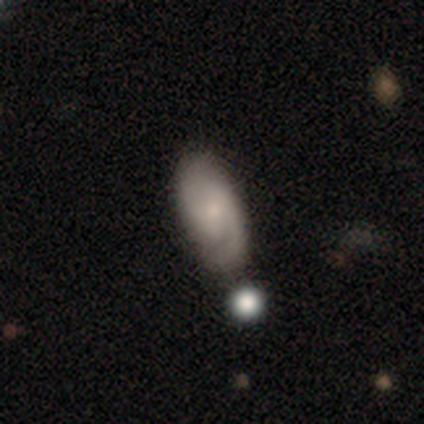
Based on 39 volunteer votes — Q: Smooth or featured?
A: featured or disk (72%); runner-up: smooth (26%)
Q: Edge-on disk?
A: no (96%); runner-up: yes (4%)
Q: Bar?
A: weak (48%); runner-up: no (37%)
Q: Spiral arms?
A: yes (89%); runner-up: no (11%)
Q: Spiral winding?
A: medium (54%); runner-up: tight (25%)
Q: Spiral arm count?
A: 2 (83%); runner-up: 1 (8%)
Q: Bulge size?
A: small (44%); runner-up: moderate (41%)
Q: Merging?
A: none (58%); runner-up: merger (21%)